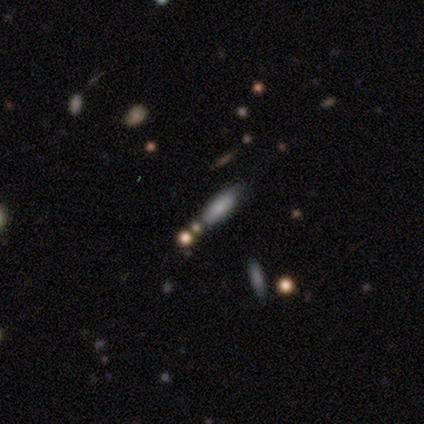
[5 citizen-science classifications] Smooth or featured? smooth (60%)
How rounded? in between (67%)
Merging? none (75%)